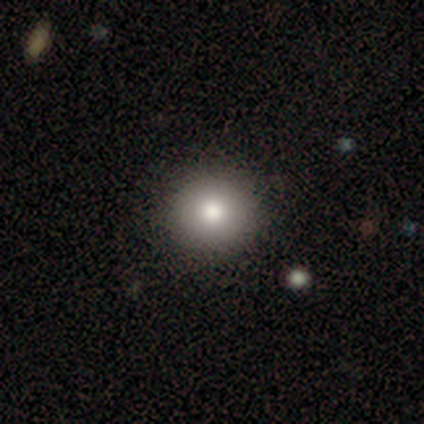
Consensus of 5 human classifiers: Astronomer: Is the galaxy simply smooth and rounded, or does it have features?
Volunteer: smooth — 80%.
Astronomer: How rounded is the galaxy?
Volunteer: round — 100%.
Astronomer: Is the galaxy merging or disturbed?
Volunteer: none — 80%.